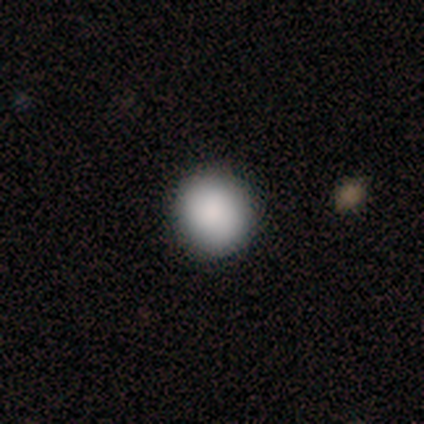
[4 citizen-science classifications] A smooth galaxy with no disk features (100%) that is round (100%). Merging: none (100%).